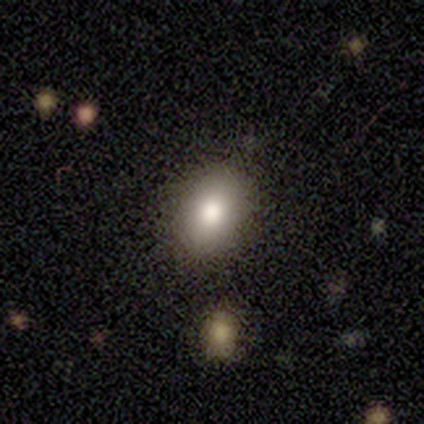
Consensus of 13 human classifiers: Overall: smooth (85%). How rounded: in between (91%). Merging: none (100%).